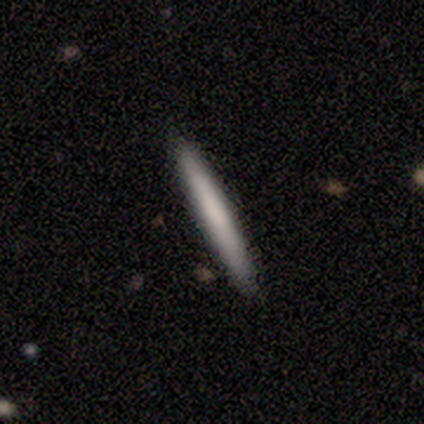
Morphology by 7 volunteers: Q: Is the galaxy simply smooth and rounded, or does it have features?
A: featured or disk — 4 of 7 (57%).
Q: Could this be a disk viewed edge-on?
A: yes — 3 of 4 (75%).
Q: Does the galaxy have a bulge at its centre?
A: none — 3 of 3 (100%).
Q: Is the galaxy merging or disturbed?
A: none — 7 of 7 (100%).